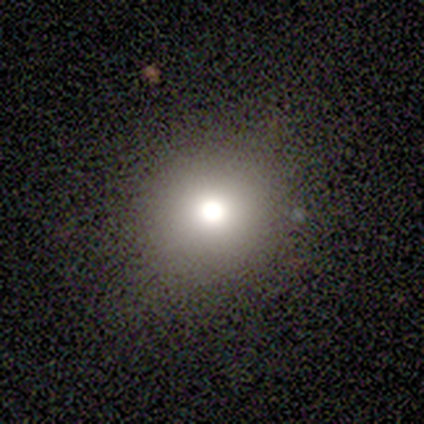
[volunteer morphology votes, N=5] A smooth galaxy with no disk features (80%) that is round (100%).

Vote fractions:
- Smooth or featured? smooth: 80% / star or artifact: 20% / featured or disk: 0%
- How rounded? round: 100% / in between: 0% / cigar-shaped: 0%
- Merging? none: 100% / minor disturbance: 0% / major disturbance: 0% / merger: 0%